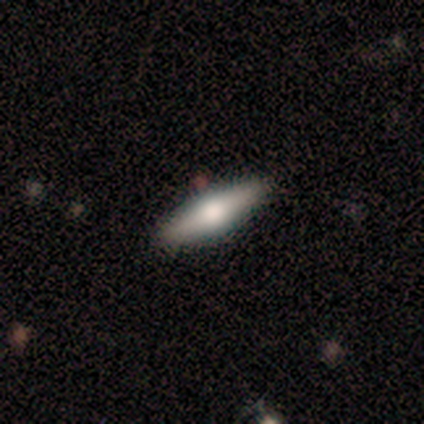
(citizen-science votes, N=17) Smooth or featured? smooth (53%)
How rounded? cigar-shaped (56%)
Merging? none (75%)